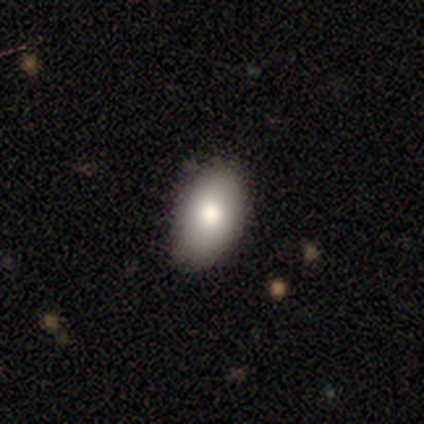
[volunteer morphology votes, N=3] Smooth or featured? smooth (100%)
How rounded? in between (100%)
Merging? none (100%)